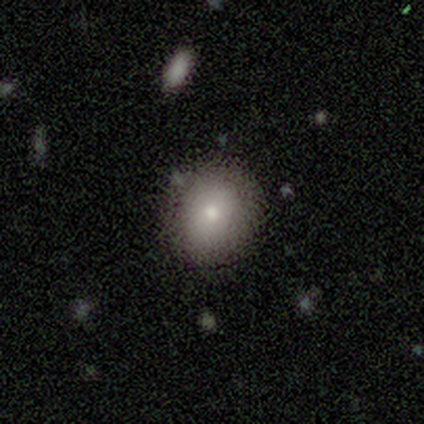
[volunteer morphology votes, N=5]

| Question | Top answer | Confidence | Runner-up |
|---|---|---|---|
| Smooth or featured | smooth | 80% | featured or disk (20%) |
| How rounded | round | 75% | in between (25%) |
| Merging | none | 80% | minor disturbance (20%) |